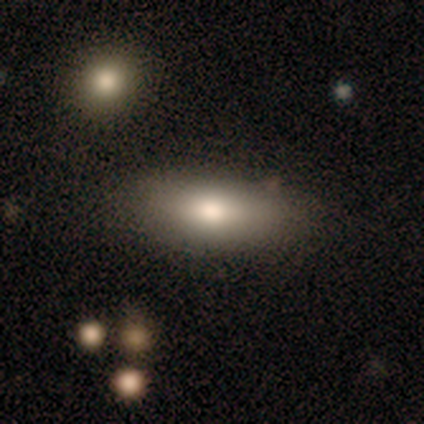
Overall: smooth (83%). How rounded: in between (70%). Merging: none (73%).